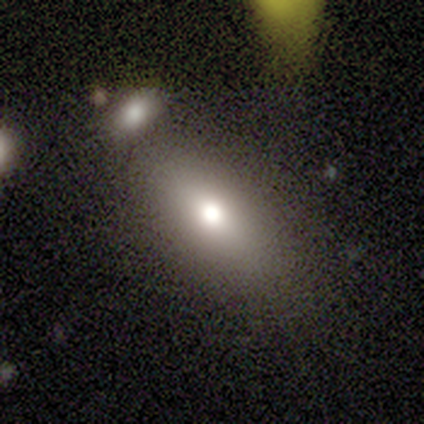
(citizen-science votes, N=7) Q: Smooth or featured?
A: smooth (71%); runner-up: featured or disk (29%)
Q: How rounded?
A: in between (60%); runner-up: cigar-shaped (40%)
Q: Merging?
A: none (57%); runner-up: minor disturbance (43%)